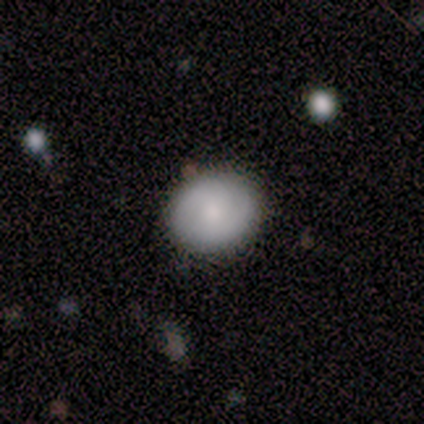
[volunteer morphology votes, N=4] A smooth galaxy with no disk features (50%) that is round (100%). Merging: none (67%).